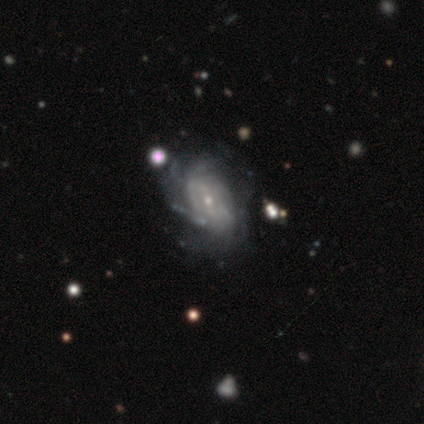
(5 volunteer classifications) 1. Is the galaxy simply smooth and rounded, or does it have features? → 80% featured or disk, 20% star or artifact, 0% smooth.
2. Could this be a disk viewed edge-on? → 100% no, 0% yes.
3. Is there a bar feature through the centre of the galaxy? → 50% no, 25% strong, 25% weak.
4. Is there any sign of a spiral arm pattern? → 75% yes, 25% no.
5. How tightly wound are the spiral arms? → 67% medium, 33% tight, 0% loose.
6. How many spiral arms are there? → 67% can't tell, 33% 3, 0% 1, 0% 2, 0% 4, 0% more than 4.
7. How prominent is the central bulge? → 75% small, 25% moderate, 0% dominant, 0% large, 0% none.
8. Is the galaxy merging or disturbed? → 100% none, 0% minor disturbance, 0% major disturbance, 0% merger.